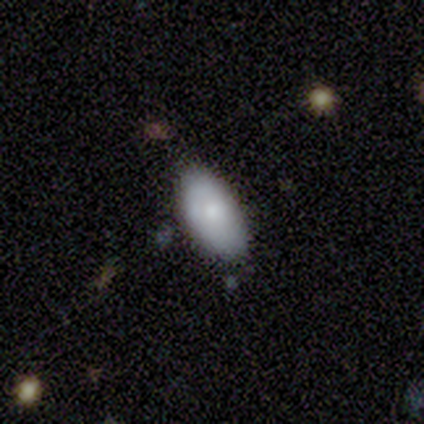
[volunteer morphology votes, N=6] This is possibly a smooth galaxy (50%). How rounded: clearly in between (100%). Merging: clearly none (80%).